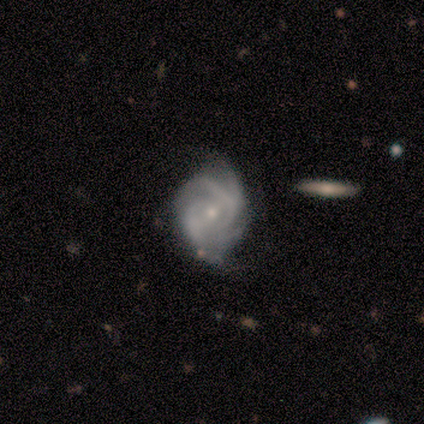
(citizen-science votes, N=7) Smooth or featured? 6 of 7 (86%) said featured or disk. Edge-on disk? 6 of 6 (100%) said no. Bar? 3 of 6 (50%) said no. Spiral arms? 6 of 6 (100%) said yes. Spiral winding? 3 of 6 (50%) said tight. Spiral arm count? 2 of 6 (33%, tied with can't tell) said 4. Bulge size? 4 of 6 (67%) said small. Merging? 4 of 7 (57%) said none.